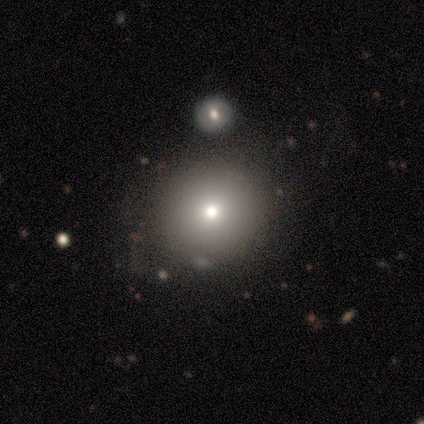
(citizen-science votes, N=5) This appears to be a smooth galaxy with no disk features (100%) that is round (80%). Merging: none (60%).